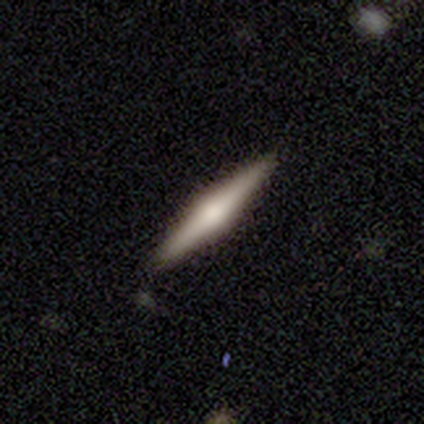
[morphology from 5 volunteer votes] smooth 60%, featured or disk 40%, star or artifact 0%. Down the decision tree: how rounded — cigar-shaped (100%); merging — none (100%).